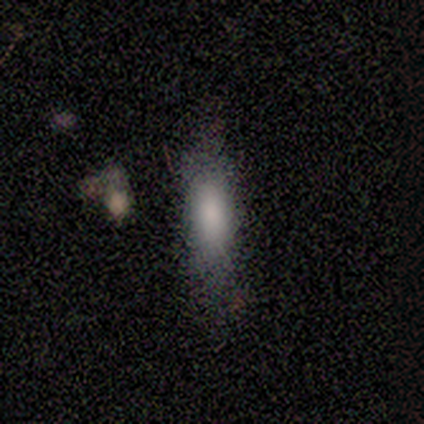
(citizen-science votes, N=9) Morphology: type=smooth (67%); roundness=cigar-shaped (67%); merging=none (57%).